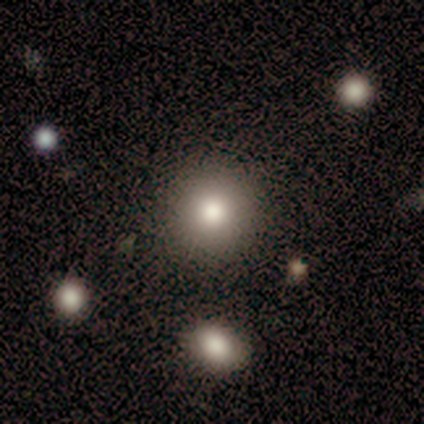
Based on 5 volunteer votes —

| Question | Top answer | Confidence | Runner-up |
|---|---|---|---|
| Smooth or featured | smooth | 80% | featured or disk (20%) |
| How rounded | round | 100% | — |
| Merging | none | 100% | — |